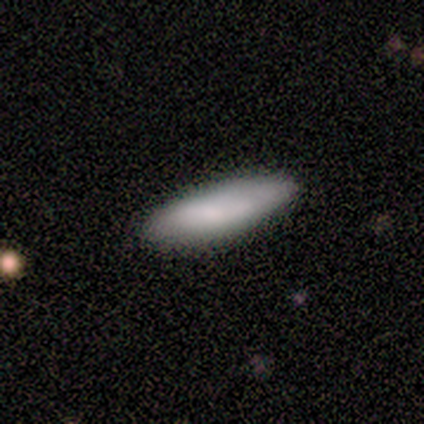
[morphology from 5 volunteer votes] smooth_or_featured: smooth (p=0.60) [alt: featured or disk p=0.40]
how_rounded: in between (p=0.67) [alt: cigar-shaped p=0.33]
merging: none (p=0.80) [alt: minor disturbance p=0.20]